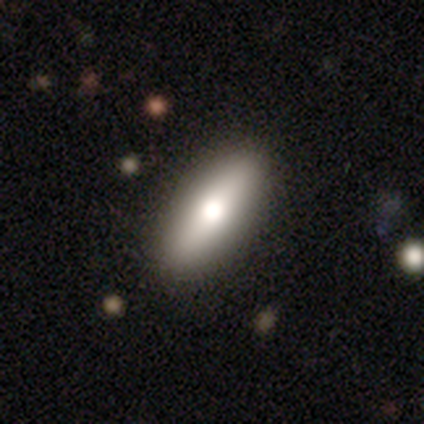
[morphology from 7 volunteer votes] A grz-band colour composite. It shows a smooth galaxy with no disk features (71%) that is in between round and cigar-shaped (80%). Merging: none (86%).